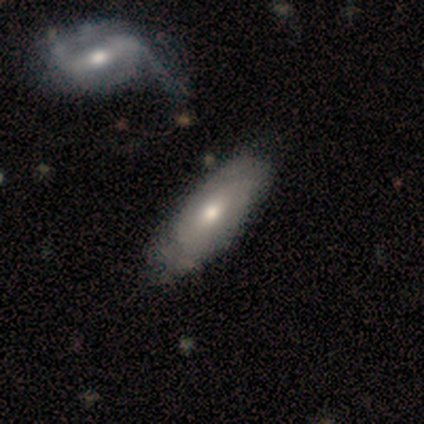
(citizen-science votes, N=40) This appears to be a featured or disk galaxy (60%) with no bar (81%), tight (62%) spiral arms (62%) and a moderate central bulge (81%). Merging: none (41%).